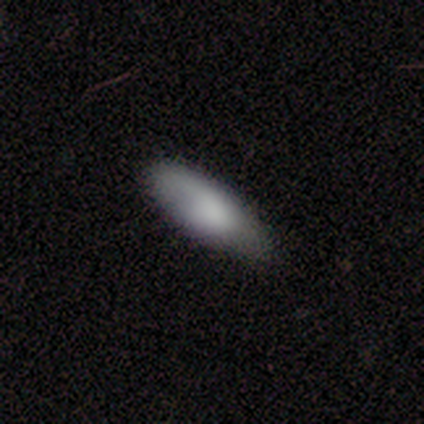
Q: Smooth or featured?
A: smooth (100%)
Q: How rounded?
A: in between (67%); runner-up: cigar-shaped (33%)
Q: Merging?
A: none (83%); runner-up: minor disturbance (17%)